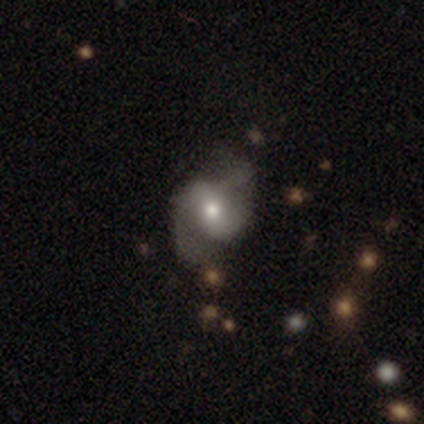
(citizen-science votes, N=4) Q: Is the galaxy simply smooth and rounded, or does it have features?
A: featured or disk — 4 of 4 (100%).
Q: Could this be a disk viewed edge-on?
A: yes — 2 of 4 (50%, tied with no).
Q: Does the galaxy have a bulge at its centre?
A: rounded — 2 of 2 (100%).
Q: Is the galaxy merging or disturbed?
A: minor disturbance — 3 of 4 (75%).